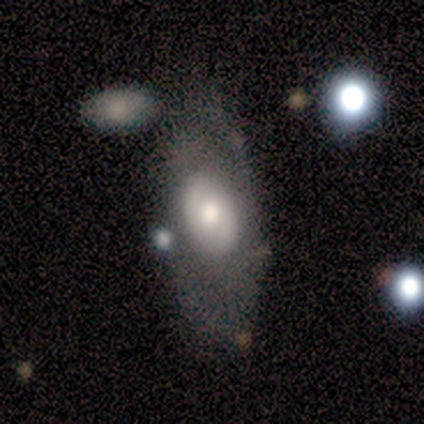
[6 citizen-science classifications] featured or disk 83%, smooth 17%, star or artifact 0%. Down the decision tree: edge-on disk — no (100%); bar — no (100%); spiral arms — no (80%); bulge size — moderate (60%); merging — none (83%).